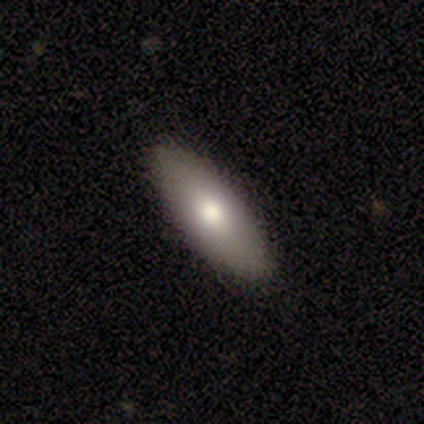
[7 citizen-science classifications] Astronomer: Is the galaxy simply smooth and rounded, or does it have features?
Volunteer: smooth — 86%.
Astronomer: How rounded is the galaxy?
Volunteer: in between — 83%.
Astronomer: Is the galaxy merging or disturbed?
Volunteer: none — 100%.